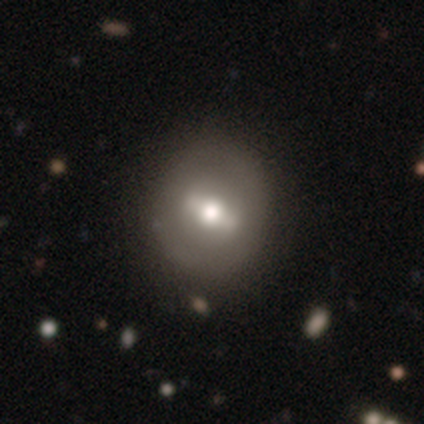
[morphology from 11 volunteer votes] Smooth or featured?
  - featured or disk: 73% *
  - smooth: 18%
  - star or artifact: 9%
Edge-on disk?
  - no: 75% *
  - yes: 25%
Bar?
  - strong: 67% *
  - weak: 33%
  - no: 0%
Spiral arms?
  - no: 83% *
  - yes: 17%
Bulge size?
  - moderate: 83% *
  - dominant: 17%
  - large: 0%
  - small: 0%
  - none: 0%
Merging?
  - none: 80% *
  - minor disturbance: 20%
  - major disturbance: 0%
  - merger: 0%